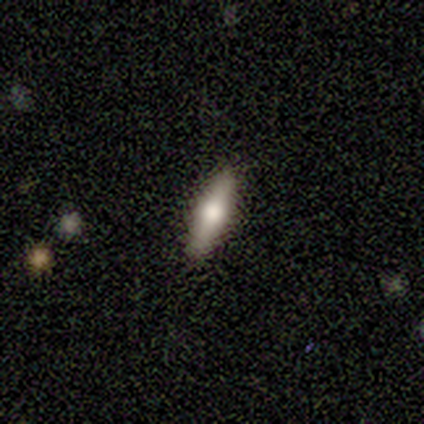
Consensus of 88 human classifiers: Morphology: type=smooth (66%); roundness=cigar-shaped (71%); merging=none (92%).